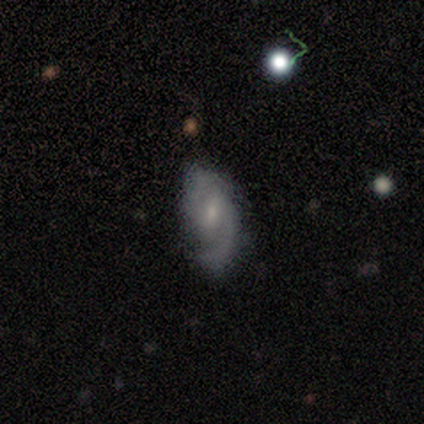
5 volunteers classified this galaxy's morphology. featured or disk 80%, star or artifact 20%, smooth 0%. Down the decision tree: edge-on disk — no (100%); bar — weak (75%); spiral arms — yes (100%); spiral arm count — 2 (100%); spiral winding — medium (50%, tied with loose); bulge size — small (75%); merging — none (75%).